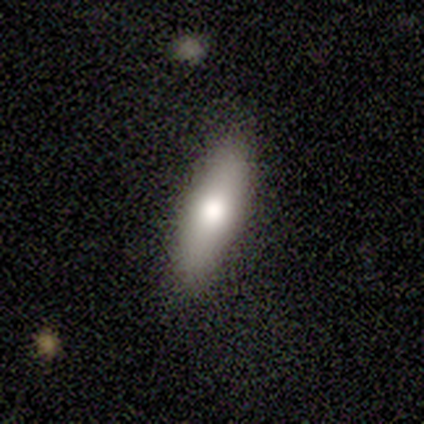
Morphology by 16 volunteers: Smooth or featured: smooth — 62% (featured or disk — 38%)
How rounded: cigar-shaped — 70% (in between — 30%)
Merging: none — 75% (minor disturbance — 19%)